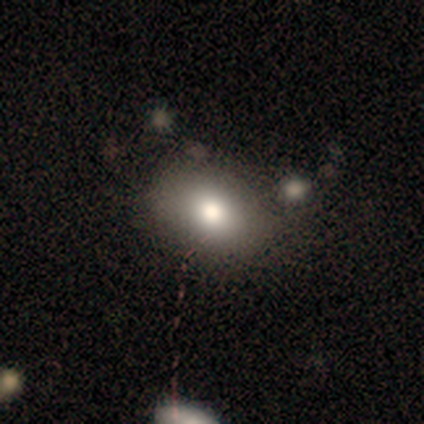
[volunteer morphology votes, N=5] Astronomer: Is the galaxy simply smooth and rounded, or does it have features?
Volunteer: smooth — 80%.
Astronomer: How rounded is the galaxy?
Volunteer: in between — 100%.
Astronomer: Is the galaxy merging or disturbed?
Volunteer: none — 100%.